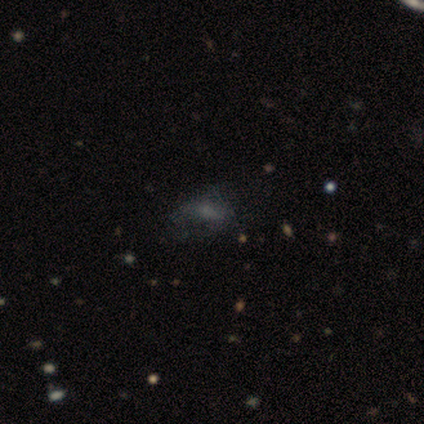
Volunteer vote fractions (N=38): A smooth galaxy with no disk features (45%) that is in between round and cigar-shaped (76%). Merging: none (50%).